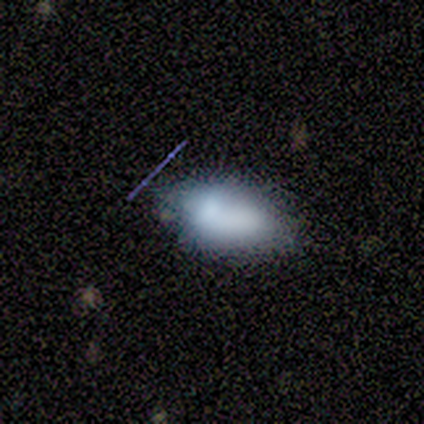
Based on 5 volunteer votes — Smooth or featured? 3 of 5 (60%) said smooth. How rounded? 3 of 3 (100%) said in between. Merging? 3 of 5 (60%) said merger.